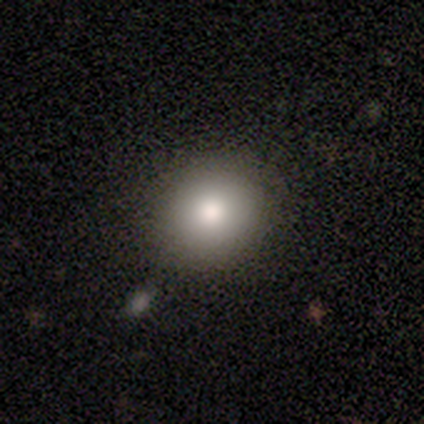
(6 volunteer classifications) A smooth galaxy with no disk features (67%) that is round (75%). Merging: none (100%).